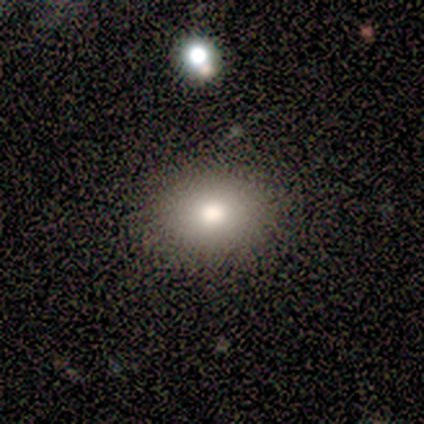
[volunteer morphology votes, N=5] Smooth or featured? 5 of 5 (100%) said smooth. How rounded? 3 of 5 (60%) said in between. Merging? 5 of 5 (100%) said none.